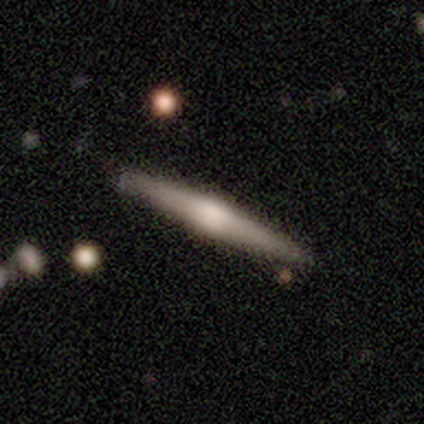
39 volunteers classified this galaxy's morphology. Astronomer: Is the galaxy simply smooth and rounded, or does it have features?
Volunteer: featured or disk — 74%.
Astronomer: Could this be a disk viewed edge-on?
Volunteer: yes — 100%.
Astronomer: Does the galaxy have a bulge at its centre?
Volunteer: rounded — 93%.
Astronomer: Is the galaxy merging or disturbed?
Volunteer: none — 79%.